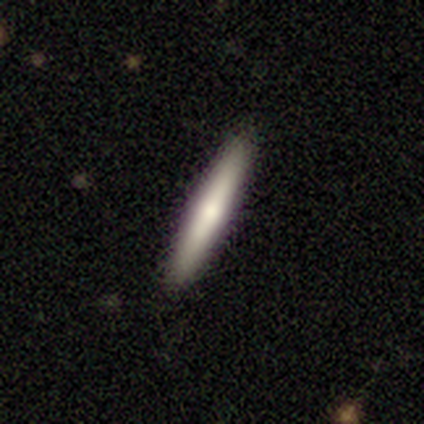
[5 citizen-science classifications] This is clearly a smooth galaxy (80%). How rounded: clearly cigar-shaped (100%). Merging: clearly none (100%).